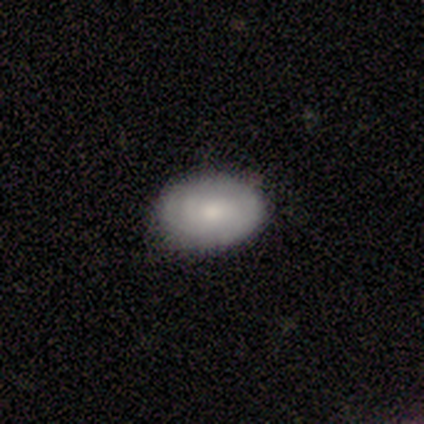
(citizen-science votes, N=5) A smooth galaxy with no disk features (100%) that is in between round and cigar-shaped (60%).

Vote fractions:
- Smooth or featured? smooth: 100% / featured or disk: 0% / star or artifact: 0%
- How rounded? in between: 60% / round: 40% / cigar-shaped: 0%
- Merging? none: 100% / minor disturbance: 0% / major disturbance: 0% / merger: 0%